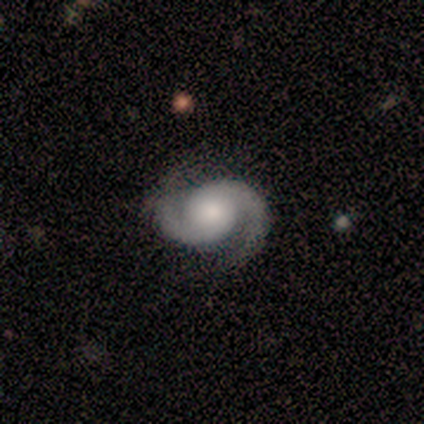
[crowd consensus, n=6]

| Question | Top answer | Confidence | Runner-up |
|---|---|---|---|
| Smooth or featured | featured or disk | 67% | smooth (17%) |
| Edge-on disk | no | 100% | — |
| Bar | no | 100% | — |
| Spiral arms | yes | 100% | — |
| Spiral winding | medium | 75% | tight (25%) |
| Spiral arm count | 2 | 100% | — |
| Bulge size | large | 50% | moderate (25%) |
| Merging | none | 60% | minor disturbance (20%) |